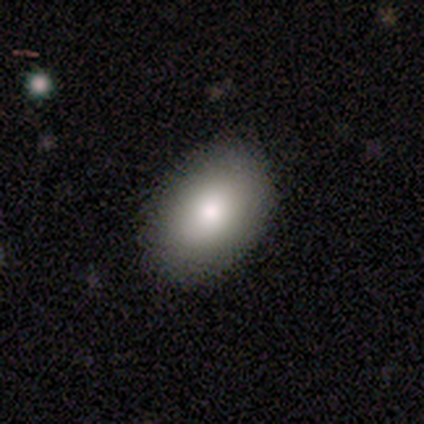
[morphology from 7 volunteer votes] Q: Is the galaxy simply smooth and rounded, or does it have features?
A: smooth — 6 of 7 (86%).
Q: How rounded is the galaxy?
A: in between — 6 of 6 (100%).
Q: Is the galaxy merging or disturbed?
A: none — 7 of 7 (100%).